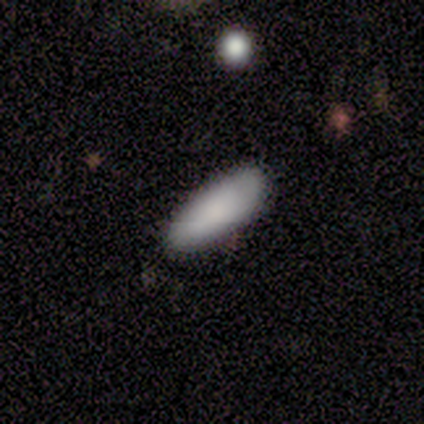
This is clearly a smooth galaxy (100%). How rounded: clearly in between (100%). Merging: likely none (78%).